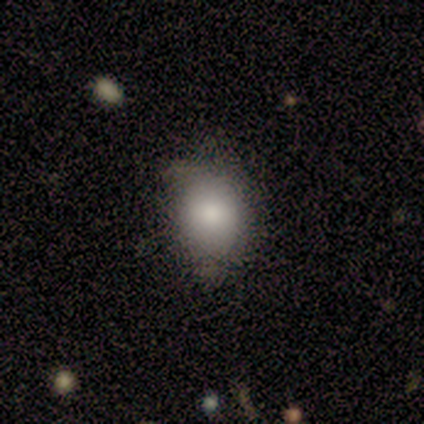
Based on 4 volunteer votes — A smooth galaxy with no disk features (100%) that is round (50%, tied with in between).

Vote fractions:
- Smooth or featured? smooth: 100% / featured or disk: 0% / star or artifact: 0%
- How rounded? round: 50% (tied) / in between: 50% (tied) / cigar-shaped: 0%
- Merging? none: 75% / major disturbance: 25% / minor disturbance: 0% / merger: 0%